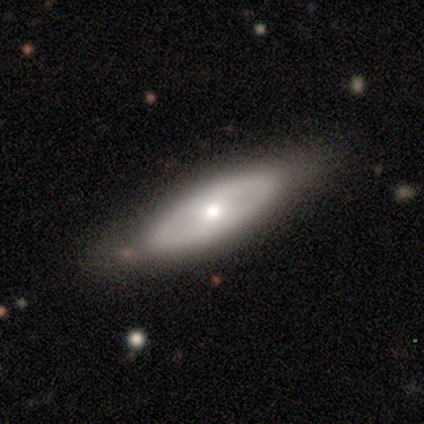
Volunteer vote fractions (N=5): Smooth or featured: smooth — 60% (featured or disk — 40%)
How rounded: in between — 100%
Merging: none — 100%